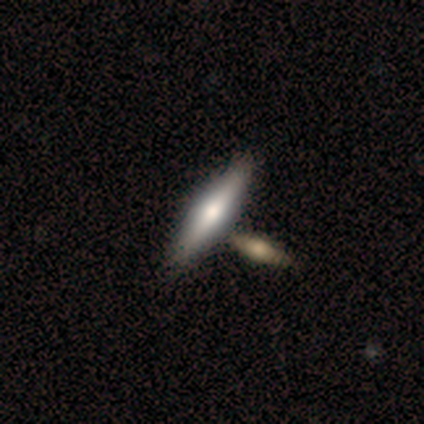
Smooth or featured: featured or disk — 50% (smooth — 47%)
Edge-on disk: yes — 95% (no — 5%)
Edge-on bulge: rounded — 78% (none — 17%)
Merging: none — 57% (merger — 30%)